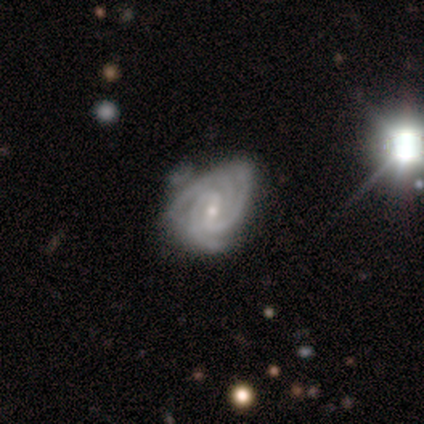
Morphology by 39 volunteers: smooth_or_featured: featured or disk (p=0.92) [alt: star or artifact p=0.05]
disk_edge_on: no (p=1.00)
bar: weak (p=0.56) [alt: no p=0.25]
has_spiral_arms: yes (p=1.00)
spiral_winding: tight (p=0.64) [alt: medium p=0.33]
spiral_arm_count: 3 (p=0.72) [alt: 2 p=0.14]
bulge_size: small (p=0.78) [alt: moderate p=0.22]
merging: none (p=0.46) [alt: minor disturbance p=0.32]